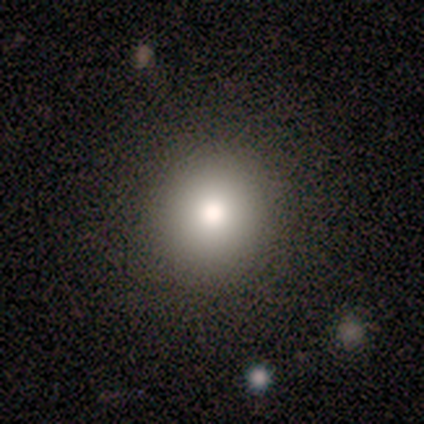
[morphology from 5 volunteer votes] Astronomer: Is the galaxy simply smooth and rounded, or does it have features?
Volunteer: smooth — 60%.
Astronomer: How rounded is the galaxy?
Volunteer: round — 100%.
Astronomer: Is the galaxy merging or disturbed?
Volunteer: none — 100%.